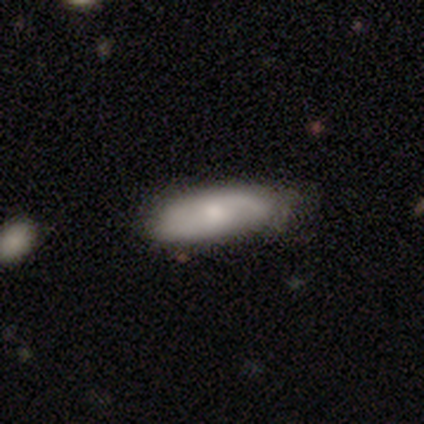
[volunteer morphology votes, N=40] smooth-or-featured: smooth: 50% (tied) | featured or disk: 50% (tied) | star or artifact: 0%
  how-rounded: in between: 85% | cigar-shaped: 15% | round: 0%
  merging: none: 45% | minor disturbance: 15% | major disturbance: 5% | merger: 5%